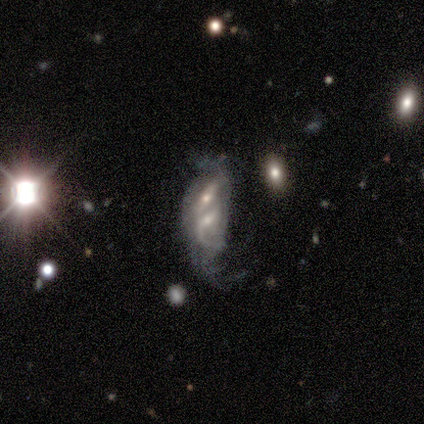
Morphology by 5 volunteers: Smooth or featured? featured or disk (60%)
Edge-on disk? no (100%)
Bar? no (67%)
Spiral arms? yes (67%)
Spiral winding? tight (50%, tied with loose)
Spiral arm count? 2 (50%, tied with can't tell)
Bulge size? moderate (33%, tied with small and none)
Merging? merger (40%)